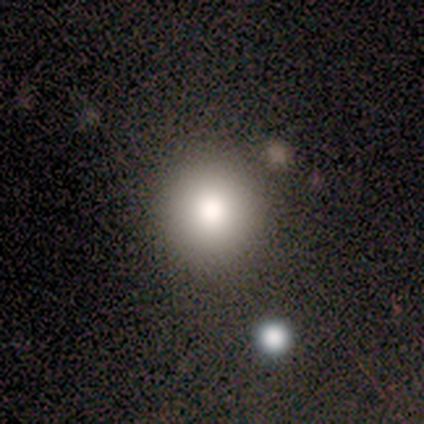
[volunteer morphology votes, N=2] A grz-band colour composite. It shows a smooth galaxy with no disk features (50%, tied with star or artifact) that is round (100%). Merging: none (100%).